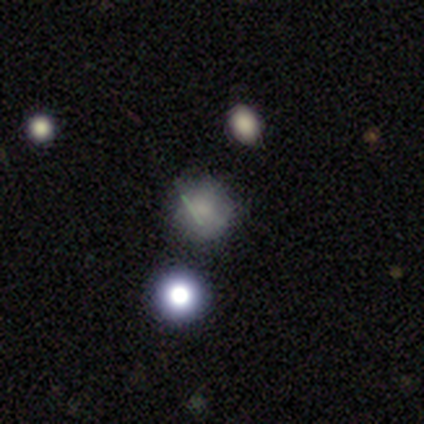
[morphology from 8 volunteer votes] smooth_or_featured: smooth (p=0.75) [alt: star or artifact p=0.25]
how_rounded: round (p=1.00)
merging: none (p=0.67) [alt: minor disturbance p=0.17]